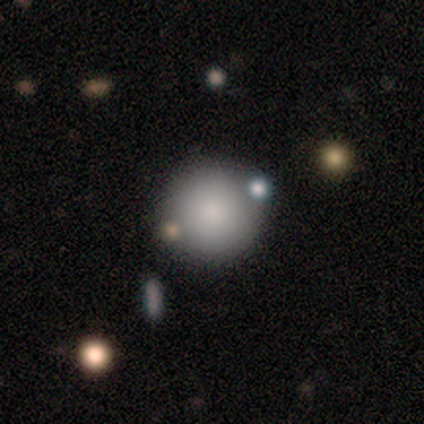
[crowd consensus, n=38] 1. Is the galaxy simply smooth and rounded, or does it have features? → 92% smooth, 5% star or artifact, 3% featured or disk.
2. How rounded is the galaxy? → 100% round, 0% in between, 0% cigar-shaped.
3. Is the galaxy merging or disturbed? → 67% none, 17% minor disturbance, 14% merger, 3% major disturbance.